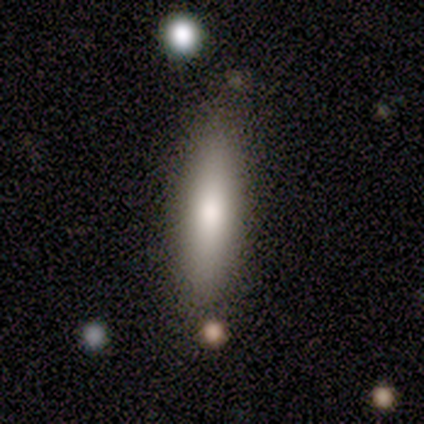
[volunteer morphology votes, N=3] A featured or disk galaxy (67%) viewed edge-on (100%) with no central bulge (50%, tied with rounded).

Vote fractions:
- Smooth or featured? featured or disk: 67% / smooth: 33% / star or artifact: 0%
- Edge-on disk? yes: 100% / no: 0%
- Edge-on bulge? none: 50% (tied) / rounded: 50% (tied) / boxy: 0%
- Merging? none: 33% (tied) / major disturbance: 33% (tied) / merger: 33% (tied) / minor disturbance: 0%